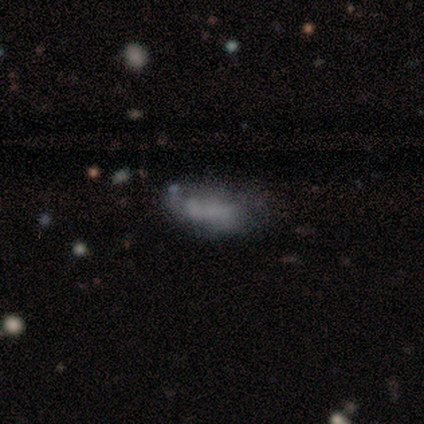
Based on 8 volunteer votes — smooth-or-featured: smooth: 50% | featured or disk: 38% | star or artifact: 12%
  how-rounded: in between: 75% | cigar-shaped: 25% | round: 0%
  merging: none: 57% | merger: 29% | minor disturbance: 14% | major disturbance: 0%